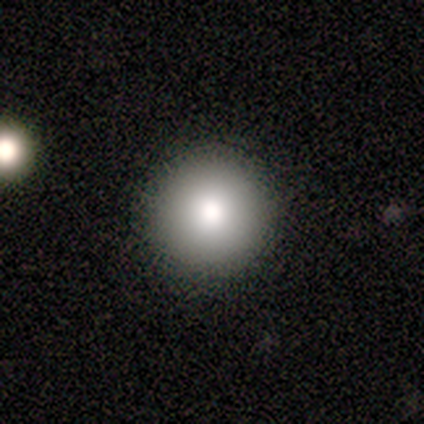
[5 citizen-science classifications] Smooth or featured? smooth (80%)
How rounded? round (100%)
Merging? none (80%)